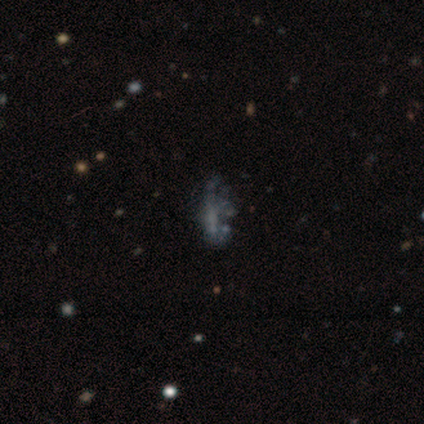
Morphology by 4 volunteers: Smooth or featured? 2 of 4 (50%, tied with featured or disk) said smooth. How rounded? 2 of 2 (100%) said in between. Merging? 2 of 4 (50%) said major disturbance.